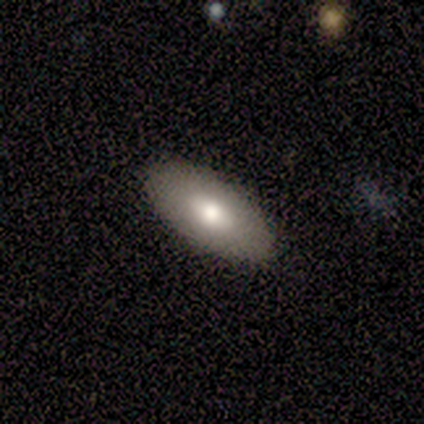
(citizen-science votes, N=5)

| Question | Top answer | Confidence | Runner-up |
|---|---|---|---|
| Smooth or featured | smooth | 80% | featured or disk (20%) |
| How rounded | in between | 100% | — |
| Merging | none | 80% | major disturbance (20%) |